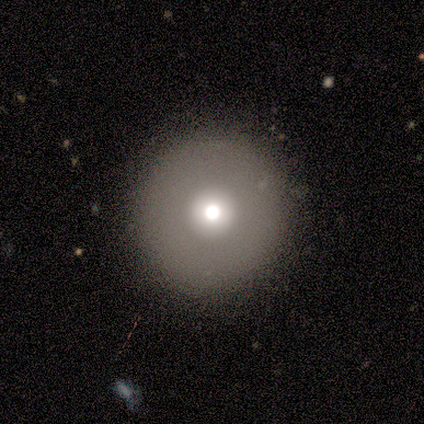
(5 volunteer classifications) A featured or disk galaxy (60%) with no bar (100%), no spiral arms (100%) and a large central bulge (67%).

Vote fractions:
- Smooth or featured? featured or disk: 60% / smooth: 40% / star or artifact: 0%
- Edge-on disk? no: 100% / yes: 0%
- Bar? no: 100% / strong: 0% / weak: 0%
- Spiral arms? no: 100% / yes: 0%
- Bulge size? large: 67% / small: 33% / dominant: 0% / moderate: 0% / none: 0%
- Merging? none: 100% / minor disturbance: 0% / major disturbance: 0% / merger: 0%